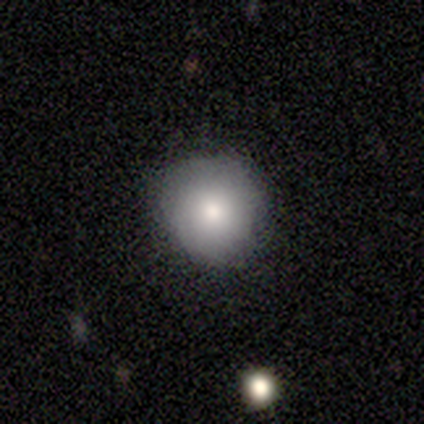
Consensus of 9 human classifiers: Volunteers were most divided on "merging": none: 89%, minor disturbance: 11%, major disturbance: 0%, merger: 0%. More confident: smooth or featured — smooth (100%); how rounded — round (100%).